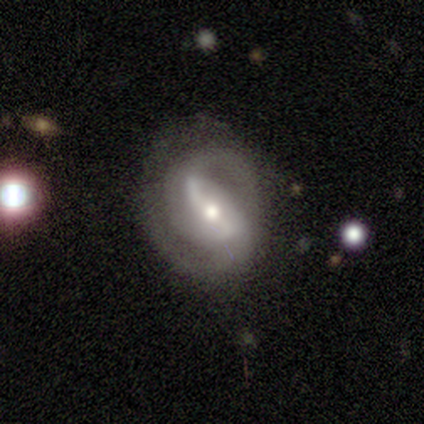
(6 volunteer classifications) Smooth or featured?
  - featured or disk: 83% *
  - star or artifact: 17%
  - smooth: 0%
Edge-on disk?
  - no: 100% *
  - yes: 0%
Bar?
  - strong: 60% *
  - weak: 20%
  - no: 20%
Spiral arms?
  - yes: 100% *
  - no: 0%
Spiral winding?
  - medium: 60% *
  - tight: 20%
  - loose: 20%
Spiral arm count?
  - 2: 100% *
  - 1: 0%
  - 3: 0%
  - 4: 0%
  - more than 4: 0%
  - can't tell: 0%
Bulge size?
  - moderate: 100% *
  - dominant: 0%
  - large: 0%
  - small: 0%
  - none: 0%
Merging?
  - none: 100% *
  - minor disturbance: 0%
  - major disturbance: 0%
  - merger: 0%